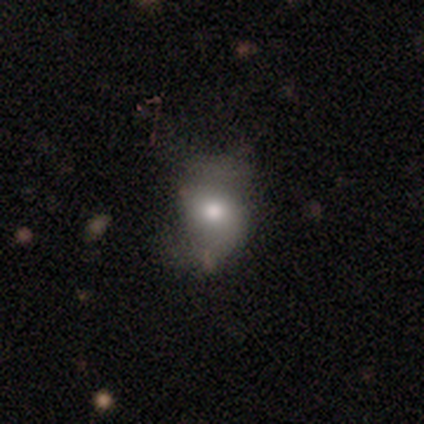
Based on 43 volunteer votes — Overall: smooth (67%). How rounded: round (52%; in between 48%). Merging: none (42%; minor disturbance 28%).